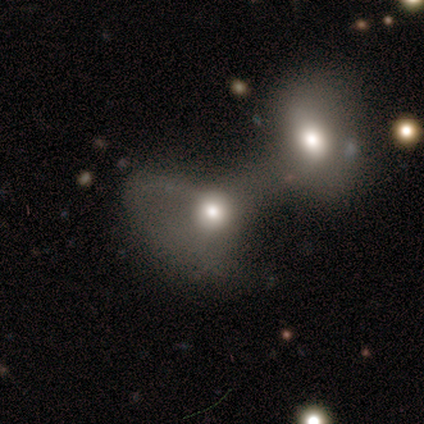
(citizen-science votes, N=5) A featured or disk galaxy (60%) with no bar (100%), no spiral arms (100%) and a moderate central bulge (100%). Merging: merger (100%).